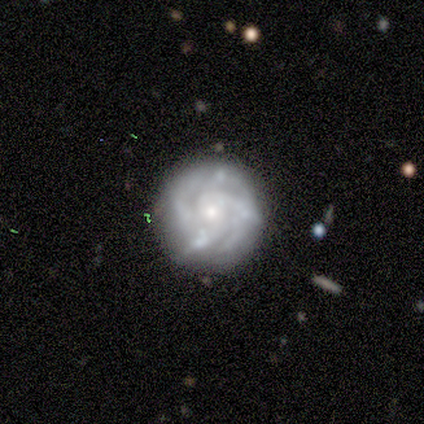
smooth_or_featured: featured or disk (p=0.86) [alt: smooth p=0.14]
disk_edge_on: no (p=1.00)
bar: weak (p=0.50) [tied with: no p=0.50]
has_spiral_arms: yes (p=0.83) [alt: no p=0.17]
spiral_winding: tight (p=0.60) [alt: medium p=0.40]
spiral_arm_count: 4 (p=0.40) [alt: 2 p=0.20]
bulge_size: moderate (p=0.33) [tied with: small p=0.33]
merging: none (p=0.71) [alt: minor disturbance p=0.29]